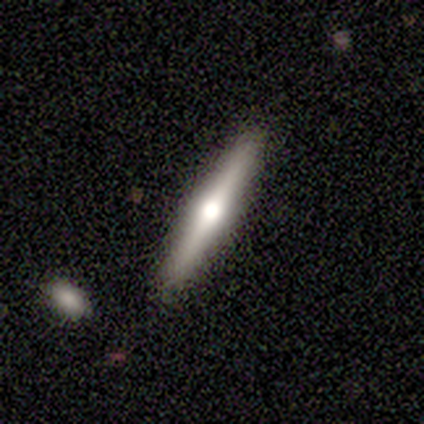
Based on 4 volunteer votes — Morphology: type=smooth (50%, tied with featured or disk); roundness=cigar-shaped (100%); merging=none (100%).